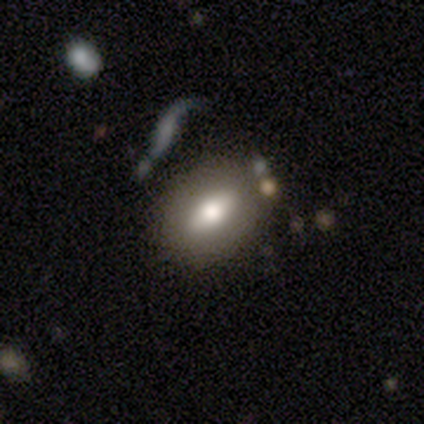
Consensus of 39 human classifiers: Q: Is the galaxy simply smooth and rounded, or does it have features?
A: smooth — 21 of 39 (54%).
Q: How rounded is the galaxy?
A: in between — 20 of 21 (95%).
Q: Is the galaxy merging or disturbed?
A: none — 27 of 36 (75%).